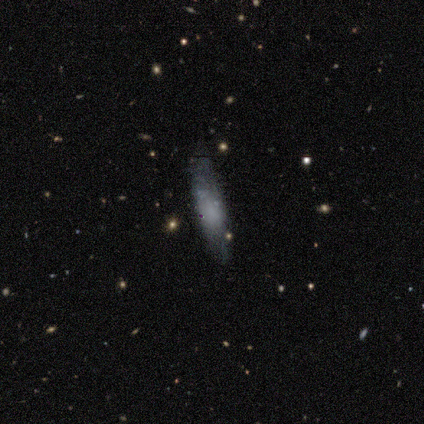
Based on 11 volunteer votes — Volunteers were most divided on "smooth or featured": smooth: 64%, featured or disk: 27%, star or artifact: 9%. More confident: how rounded — cigar-shaped (86%); merging — none (70%).